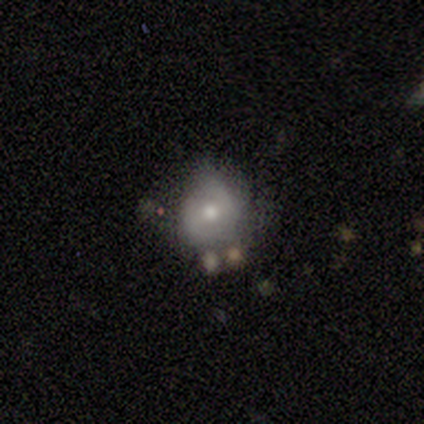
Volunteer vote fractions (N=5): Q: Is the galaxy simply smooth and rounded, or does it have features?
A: smooth — 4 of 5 (80%).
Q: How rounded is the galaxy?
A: round — 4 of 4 (100%).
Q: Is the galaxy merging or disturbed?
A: minor disturbance — 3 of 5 (60%).